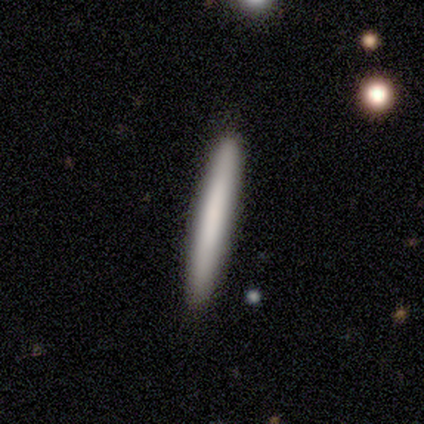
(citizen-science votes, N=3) This appears to be a smooth galaxy with no disk features (100%) that is cigar-shaped (100%). Merging: none (100%).